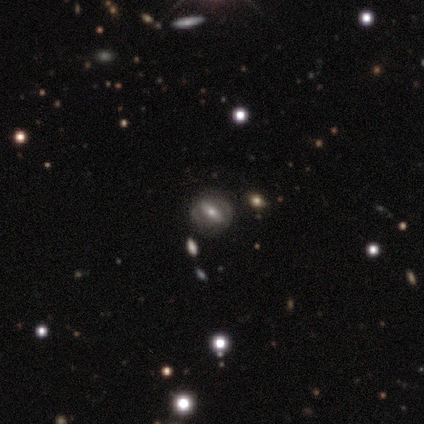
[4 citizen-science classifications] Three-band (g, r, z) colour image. It shows a smooth galaxy with no disk features (50%) that is in between round and cigar-shaped (100%). Merging: none (100%).